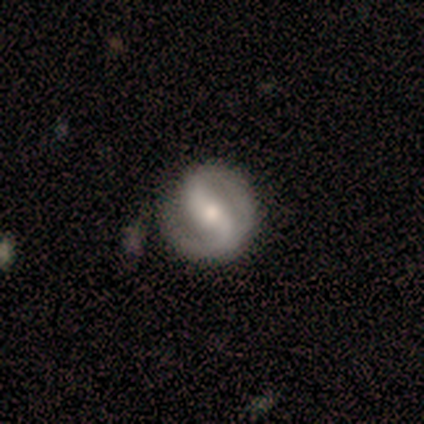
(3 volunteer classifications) Smooth or featured?
  - featured or disk: 67% *
  - star or artifact: 33%
  - smooth: 0%
Edge-on disk?
  - no: 100% *
  - yes: 0%
Bar?
  - strong: 50% * (tied)
  - weak: 50% * (tied)
  - no: 0%
Spiral arms?
  - yes: 100% *
  - no: 0%
Spiral winding?
  - medium: 100% *
  - tight: 0%
  - loose: 0%
Spiral arm count?
  - 2: 100% *
  - 1: 0%
  - 3: 0%
  - 4: 0%
  - more than 4: 0%
  - can't tell: 0%
Bulge size?
  - moderate: 100% *
  - dominant: 0%
  - large: 0%
  - small: 0%
  - none: 0%
Merging?
  - none: 50% * (tied)
  - merger: 50% * (tied)
  - minor disturbance: 0%
  - major disturbance: 0%